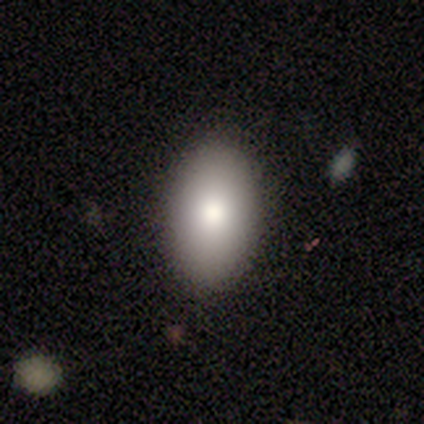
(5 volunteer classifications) Consensus on every question: smooth or featured — smooth (100%); how rounded — in between (100%); merging — none (100%).